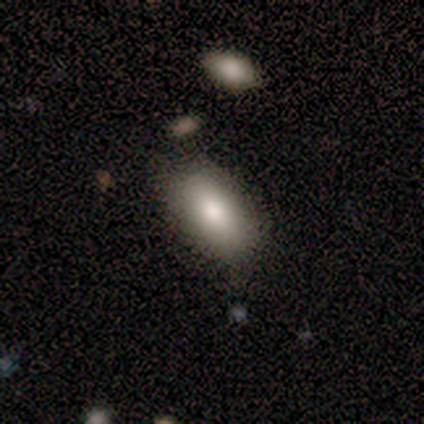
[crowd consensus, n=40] Morphology: type=smooth (70%); roundness=in between (93%); merging=none (74%).